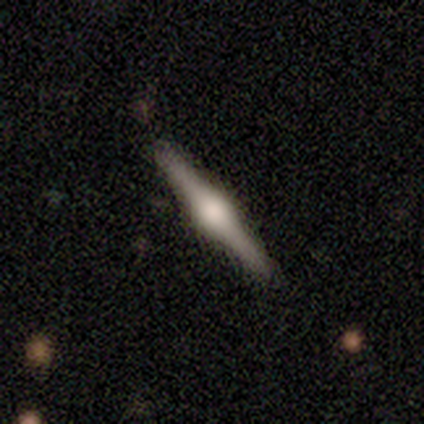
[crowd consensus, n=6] smooth_or_featured: featured or disk (p=1.00)
disk_edge_on: yes (p=1.00)
edge_on_bulge: rounded (p=1.00)
merging: none (p=1.00)